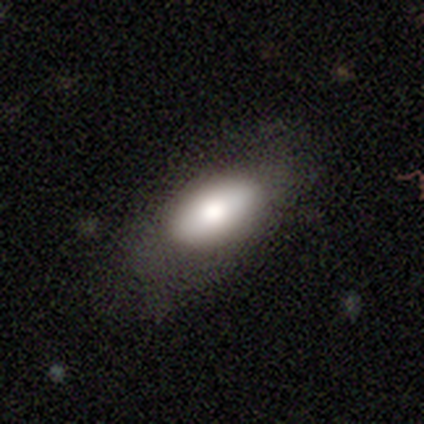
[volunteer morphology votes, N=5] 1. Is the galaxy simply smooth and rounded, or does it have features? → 60% smooth, 20% featured or disk, 20% star or artifact.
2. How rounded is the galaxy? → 100% in between, 0% round, 0% cigar-shaped.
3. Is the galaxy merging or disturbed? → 75% none, 25% minor disturbance, 0% major disturbance, 0% merger.